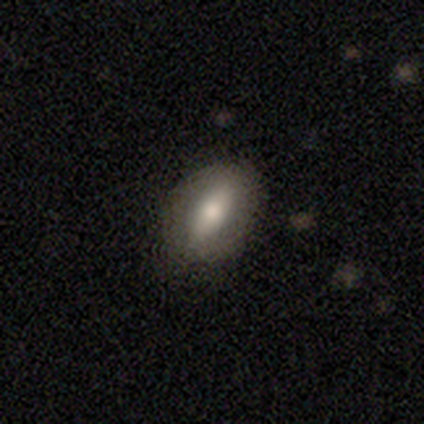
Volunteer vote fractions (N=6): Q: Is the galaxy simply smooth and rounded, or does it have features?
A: smooth — 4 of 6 (67%).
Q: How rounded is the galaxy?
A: in between — 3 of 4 (75%).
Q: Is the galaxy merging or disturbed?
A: none — 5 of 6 (83%).